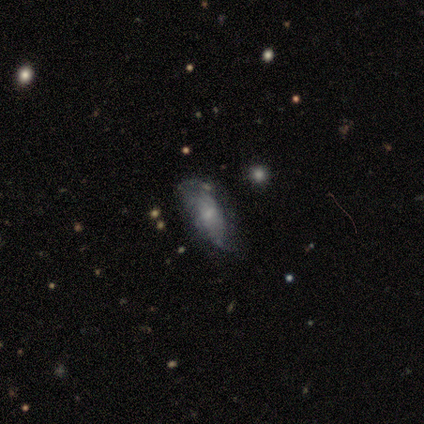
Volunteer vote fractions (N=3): Smooth or featured?
  - smooth: 67% *
  - featured or disk: 33%
  - star or artifact: 0%
How rounded?
  - in between: 50% * (tied)
  - cigar-shaped: 50% * (tied)
  - round: 0%
Merging?
  - minor disturbance: 67% *
  - none: 33%
  - major disturbance: 0%
  - merger: 0%